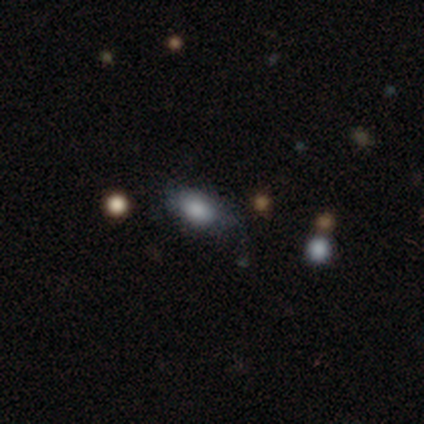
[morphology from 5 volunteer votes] Smooth or featured? smooth (100%)
How rounded? in between (100%)
Merging? minor disturbance (60%)